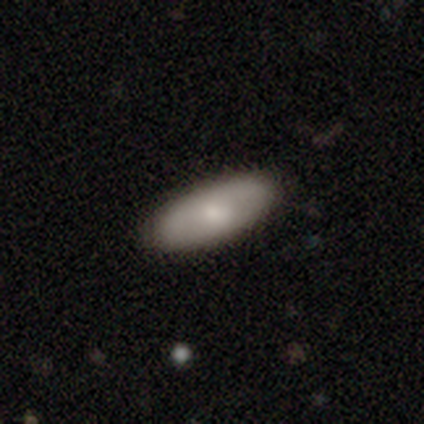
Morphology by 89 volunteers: This appears to be a smooth galaxy with no disk features (79%) that is in between round and cigar-shaped (86%). Merging: none (92%).